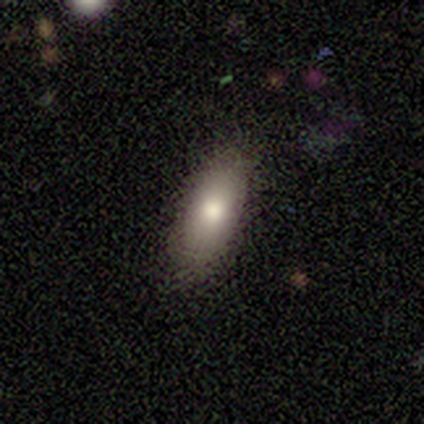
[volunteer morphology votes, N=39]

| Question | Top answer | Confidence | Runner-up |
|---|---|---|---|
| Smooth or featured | smooth | 77% | featured or disk (15%) |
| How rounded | in between | 67% | cigar-shaped (30%) |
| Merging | none | 83% | minor disturbance (14%) |